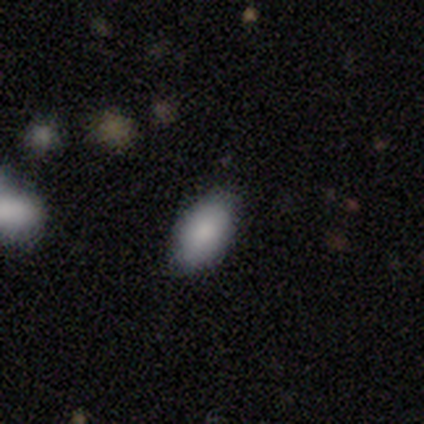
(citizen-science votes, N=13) Q: Smooth or featured?
A: smooth (100%)
Q: How rounded?
A: in between (100%)
Q: Merging?
A: none (85%); runner-up: minor disturbance (15%)